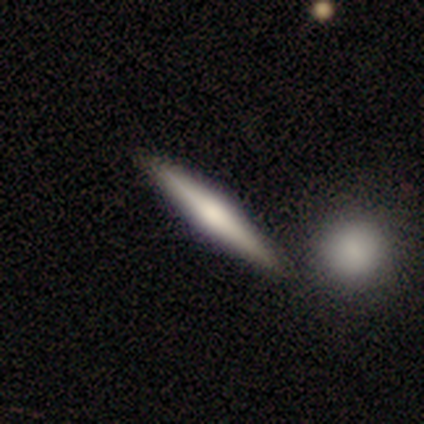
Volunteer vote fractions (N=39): Volunteers were most divided on "smooth or featured": featured or disk: 59%, smooth: 38%, star or artifact: 3%. More confident: edge-on disk — yes (100%); merging — none (84%); edge-on bulge — rounded (52%).